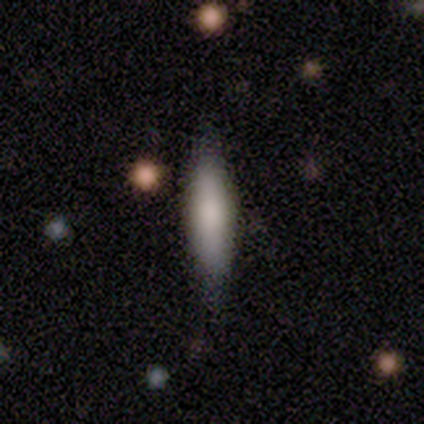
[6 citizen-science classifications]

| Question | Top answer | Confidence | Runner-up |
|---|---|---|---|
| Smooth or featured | smooth | 83% | featured or disk (17%) |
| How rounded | cigar-shaped | 80% | in between (20%) |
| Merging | none | 67% | minor disturbance (17%) |